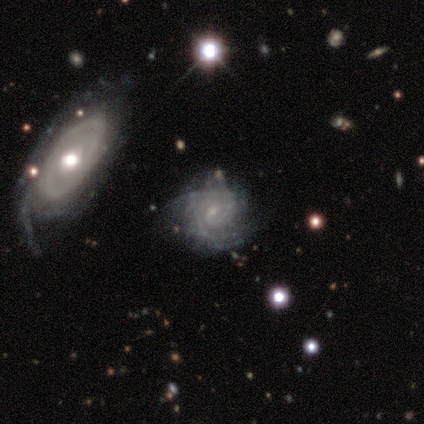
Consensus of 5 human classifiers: smooth-or-featured: featured or disk: 80% | star or artifact: 20% | smooth: 0%
  disk-edge-on: no: 100% | yes: 0%
    bar: no: 100% | strong: 0% | weak: 0%
    has-spiral-arms: yes: 75% | no: 25%
      spiral-winding: tight: 100% | medium: 0% | loose: 0%
      spiral-arm-count: 2: 67% | can't tell: 33% | 1: 0% | 3: 0% | 4: 0% | more than 4: 0%
    bulge-size: moderate: 50% (tied) | small: 50% (tied) | dominant: 0% | large: 0% | none: 0%
  merging: none: 75% | minor disturbance: 25% | major disturbance: 0% | merger: 0%